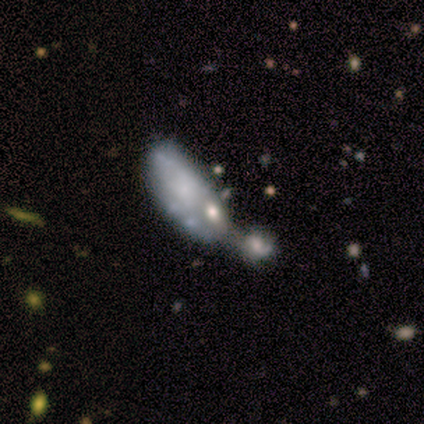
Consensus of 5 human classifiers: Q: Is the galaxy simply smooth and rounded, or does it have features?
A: featured or disk — 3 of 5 (60%).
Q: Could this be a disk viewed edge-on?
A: no — 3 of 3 (100%).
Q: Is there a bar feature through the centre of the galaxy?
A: no — 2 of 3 (67%).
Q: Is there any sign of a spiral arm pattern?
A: no — 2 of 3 (67%).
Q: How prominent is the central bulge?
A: small — 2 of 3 (67%).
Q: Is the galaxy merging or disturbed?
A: merger — 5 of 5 (100%).